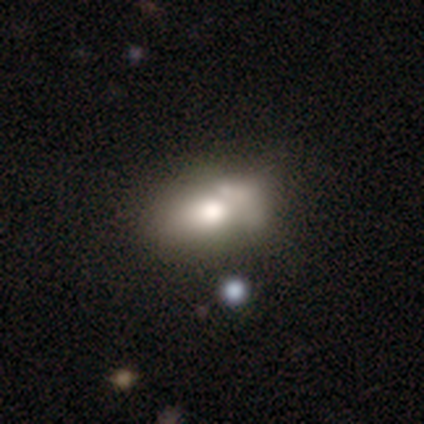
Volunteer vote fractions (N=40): Smooth or featured?
  - smooth: 68% *
  - featured or disk: 28%
  - star or artifact: 5%
How rounded?
  - in between: 93% *
  - round: 7%
  - cigar-shaped: 0%
Merging?
  - merger: 45% *
  - none: 16%
  - minor disturbance: 16%
  - major disturbance: 11%